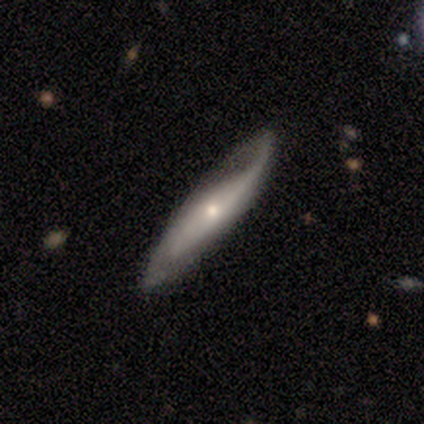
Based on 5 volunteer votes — featured or disk 80%, smooth 20%, star or artifact 0%. Down the decision tree: edge-on disk — yes (75%); edge-on bulge — boxy (33%, tied with none and rounded); merging — none (80%).